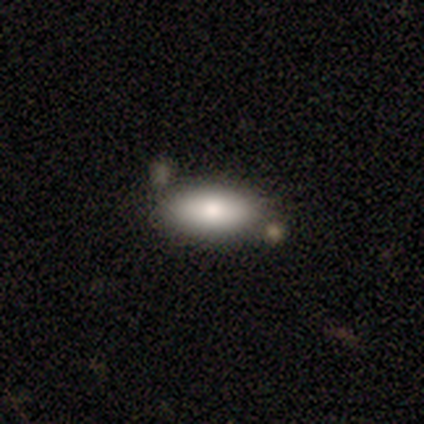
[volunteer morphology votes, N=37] Q: Smooth or featured?
A: smooth (86%); runner-up: featured or disk (8%)
Q: How rounded?
A: in between (94%); runner-up: cigar-shaped (6%)
Q: Merging?
A: none (91%); runner-up: major disturbance (6%)